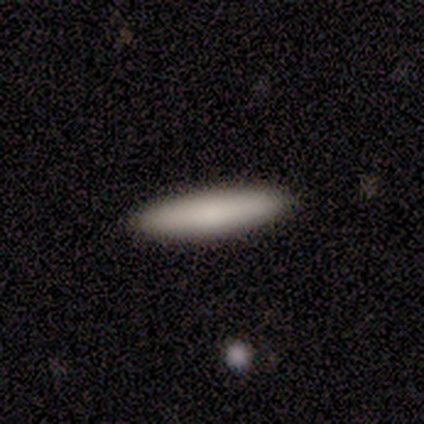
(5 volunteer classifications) Smooth or featured: smooth — 100%
How rounded: cigar-shaped — 100%
Merging: none — 100%